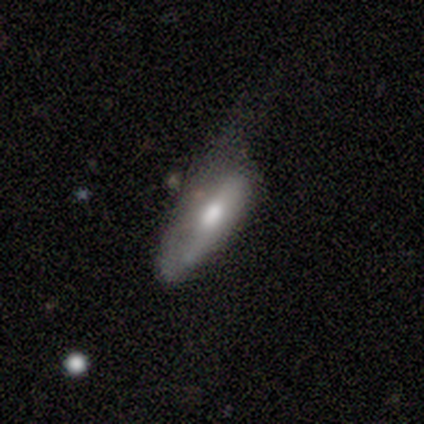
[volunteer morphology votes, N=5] A smooth galaxy with no disk features (80%) that is in between round and cigar-shaped (100%).

Vote fractions:
- Smooth or featured? smooth: 80% / featured or disk: 20% / star or artifact: 0%
- How rounded? in between: 100% / round: 0% / cigar-shaped: 0%
- Merging? minor disturbance: 60% / none: 20% / major disturbance: 20% / merger: 0%